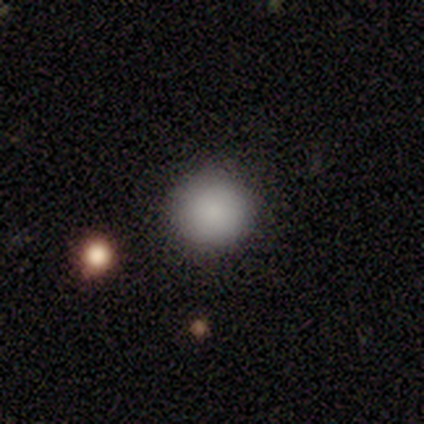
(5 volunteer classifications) smooth 100%, featured or disk 0%, star or artifact 0%. Down the decision tree: how rounded — round (80%); merging — none (100%).